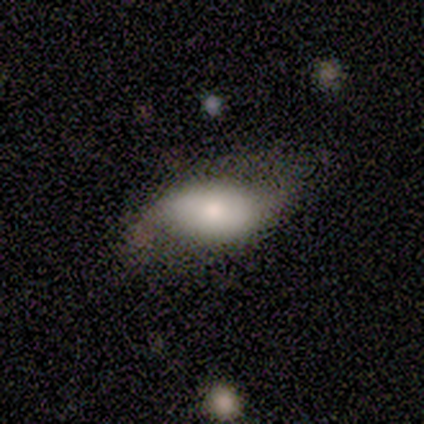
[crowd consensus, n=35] smooth 51%, featured or disk 49%, star or artifact 0%. Down the decision tree: how rounded — in between (100%); merging — minor disturbance (49%).